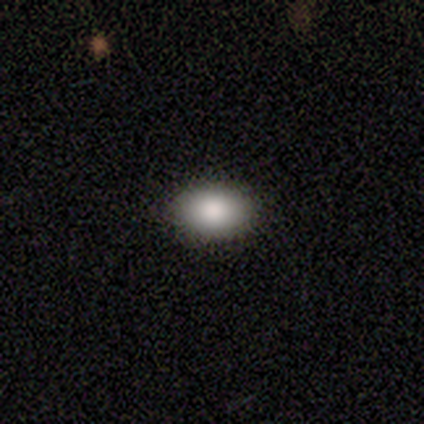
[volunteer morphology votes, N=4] A smooth galaxy with no disk features (75%) that is in between round and cigar-shaped (100%). Merging: none (100%).